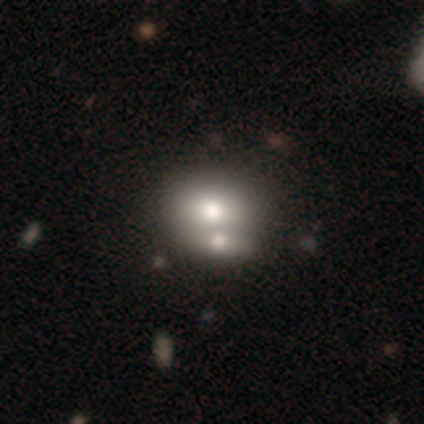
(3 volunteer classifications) Overall: smooth (100%). How rounded: round (67%; in between 33%). Merging: none (67%; merger 33%).